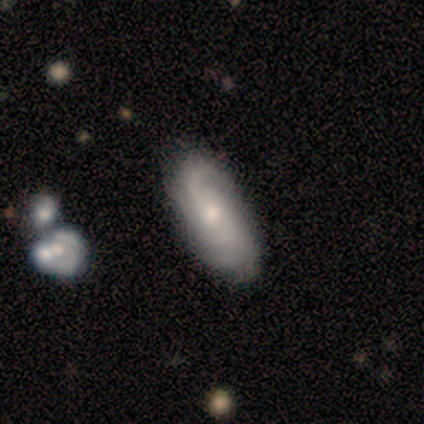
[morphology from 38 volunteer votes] A featured or disk galaxy (79%) with no bar (83%), 2 (59%) medium (44%) spiral arms (93%) and a moderate central bulge (66%). Merging: none (58%).